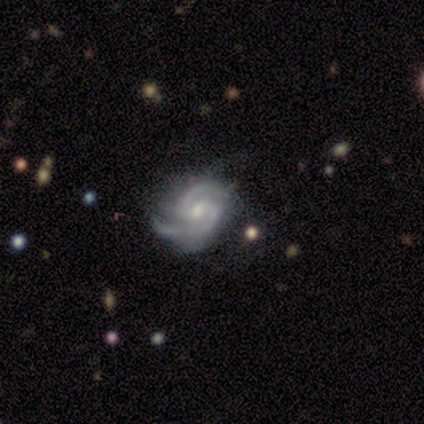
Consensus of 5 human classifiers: A featured or disk galaxy (100%) with a weak bar (60%), 2 (60%) tight (80%) spiral arms (100%) and a small central bulge (80%). Merging: none (100%).